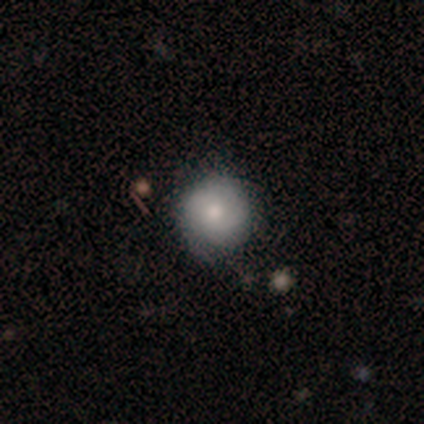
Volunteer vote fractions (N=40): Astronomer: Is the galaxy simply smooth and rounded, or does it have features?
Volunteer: smooth — 60%.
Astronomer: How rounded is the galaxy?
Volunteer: round — 88%.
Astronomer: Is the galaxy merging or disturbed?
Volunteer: none — 68%.